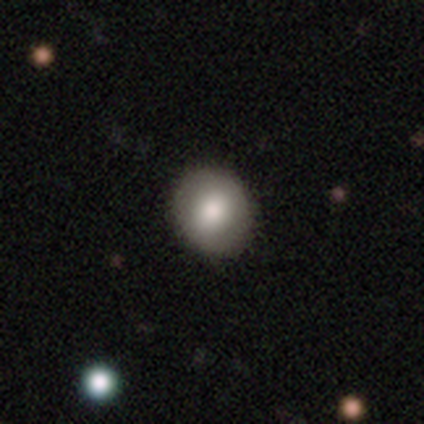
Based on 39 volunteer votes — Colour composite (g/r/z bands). It shows a smooth galaxy with no disk features (72%) that is round (75%). Merging: none (54%).